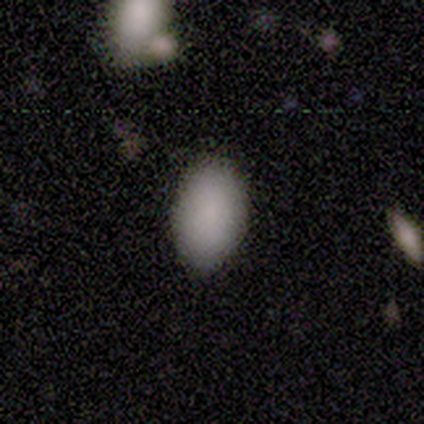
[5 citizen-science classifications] Volunteers were most divided on "merging": none: 60%, minor disturbance: 40%, major disturbance: 0%, merger: 0%. More confident: how rounded — in between (100%); smooth or featured — smooth (80%).